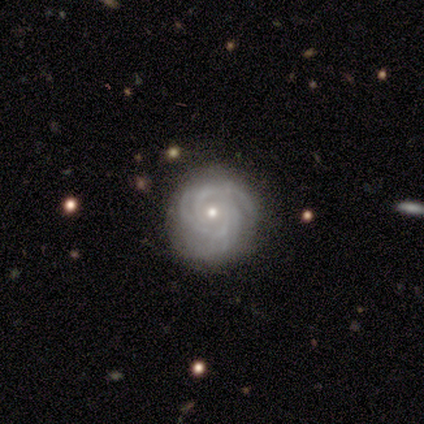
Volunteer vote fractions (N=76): Q: Smooth or featured?
A: featured or disk (92%); runner-up: star or artifact (5%)
Q: Edge-on disk?
A: no (99%); runner-up: yes (1%)
Q: Bar?
A: no (88%); runner-up: weak (9%)
Q: Spiral arms?
A: yes (99%); runner-up: no (1%)
Q: Spiral winding?
A: tight (87%); runner-up: medium (13%)
Q: Spiral arm count?
A: 3 (44%); runner-up: can't tell (18%)
Q: Bulge size?
A: small (54%); runner-up: moderate (45%)
Q: Merging?
A: none (75%); runner-up: minor disturbance (18%)